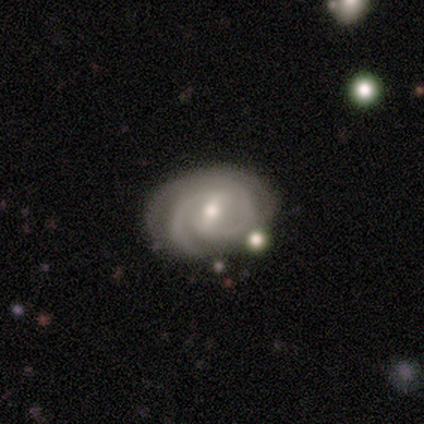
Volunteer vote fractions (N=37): Smooth or featured?
  - featured or disk: 89% *
  - smooth: 8%
  - star or artifact: 3%
Edge-on disk?
  - no: 97% *
  - yes: 3%
Bar?
  - weak: 66% *
  - strong: 28%
  - no: 6%
Spiral arms?
  - yes: 97% *
  - no: 3%
Spiral winding?
  - tight: 68% *
  - medium: 32%
  - loose: 0%
Spiral arm count?
  - 2: 71% *
  - 3: 23%
  - 1: 3%
  - can't tell: 3%
  - 4: 0%
  - more than 4: 0%
Bulge size?
  - moderate: 53% *
  - small: 47%
  - dominant: 0%
  - large: 0%
  - none: 0%
Merging?
  - none: 83% *
  - minor disturbance: 8%
  - merger: 6%
  - major disturbance: 3%